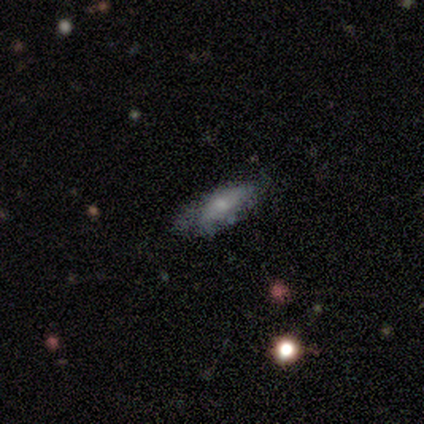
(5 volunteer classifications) This is marginally a featured or disk galaxy (40%, tied with star or artifact). It is clearly viewed edge-on (100%). Edge-on bulge: clearly rounded (100%). Merging: likely none (67%).